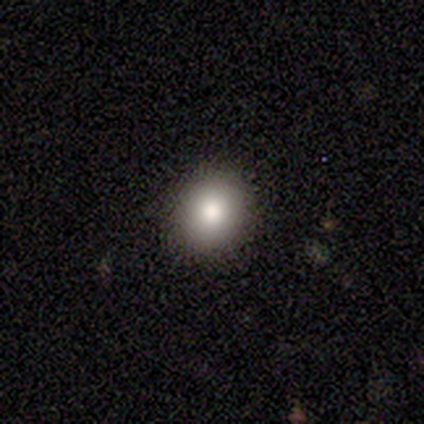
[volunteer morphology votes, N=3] This is clearly a smooth galaxy (100%). How rounded: likely round (67%). Merging: clearly none (100%).